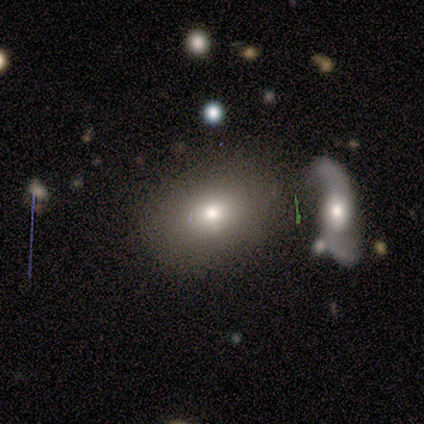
Volunteers were most divided on "smooth or featured": smooth: 62%, star or artifact: 25%, featured or disk: 12%. More confident: merging — none (83%); how rounded — in between (80%).